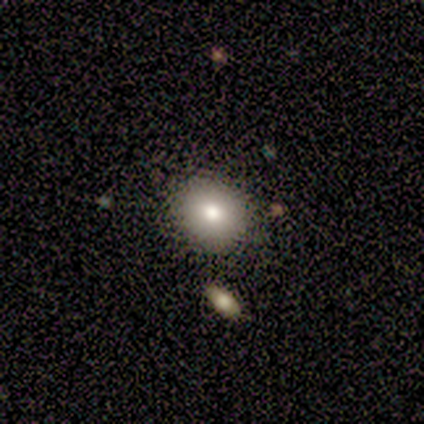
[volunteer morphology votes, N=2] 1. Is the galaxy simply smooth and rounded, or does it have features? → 100% smooth, 0% featured or disk, 0% star or artifact.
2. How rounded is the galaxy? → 100% round, 0% in between, 0% cigar-shaped.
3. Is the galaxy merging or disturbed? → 100% none, 0% minor disturbance, 0% major disturbance, 0% merger.